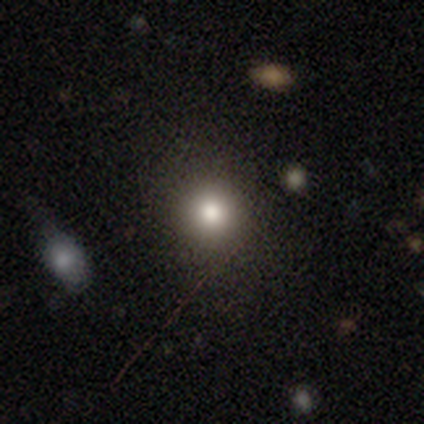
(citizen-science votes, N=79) Smooth or featured? 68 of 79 (86%) said smooth. How rounded? 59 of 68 (87%) said round. Merging? 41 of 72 (57%) said none.